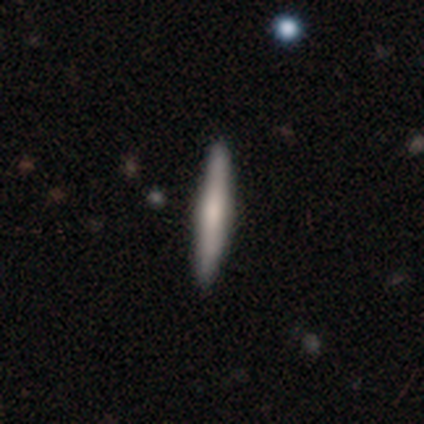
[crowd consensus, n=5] smooth-or-featured: featured or disk: 80% | smooth: 20% | star or artifact: 0%
  disk-edge-on: yes: 100% | no: 0%
    edge-on-bulge: rounded: 100% | boxy: 0% | none: 0%
  merging: none: 80% | major disturbance: 20% | minor disturbance: 0% | merger: 0%